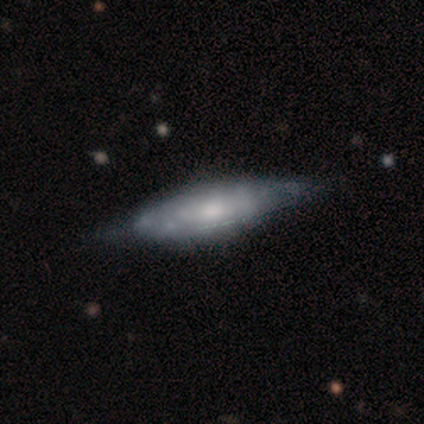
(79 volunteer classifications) featured or disk 73%, smooth 23%, star or artifact 4%. Down the decision tree: edge-on disk — no (62%); bar — no (89%); spiral arms — no (61%); bulge size — moderate (67%); merging — none (33%).